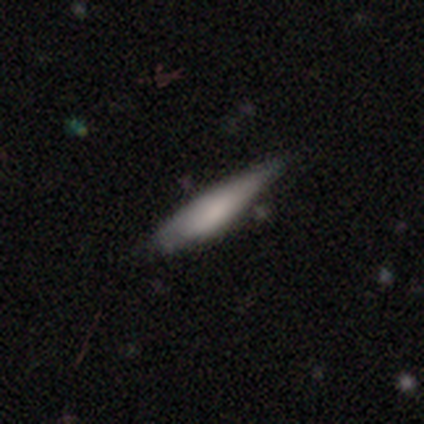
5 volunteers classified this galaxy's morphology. Q: Smooth or featured?
A: smooth (80%); runner-up: featured or disk (20%)
Q: How rounded?
A: in between (50%); tied with: cigar-shaped (50%)
Q: Merging?
A: minor disturbance (60%); runner-up: none (40%)